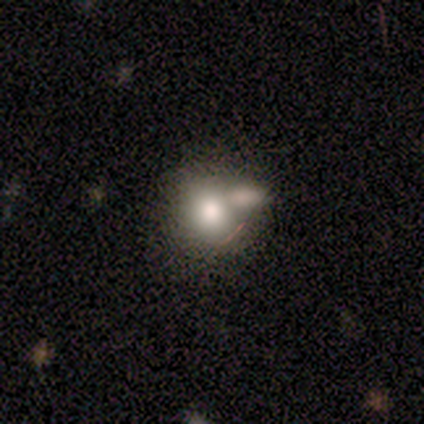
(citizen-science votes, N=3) smooth-or-featured: featured or disk: 67% | smooth: 33% | star or artifact: 0%
  disk-edge-on: no: 100% | yes: 0%
    bar: weak: 50% (tied) | no: 50% (tied) | strong: 0%
    has-spiral-arms: no: 100% | yes: 0%
    bulge-size: large: 50% (tied) | moderate: 50% (tied) | dominant: 0% | small: 0% | none: 0%
  merging: merger: 67% | major disturbance: 33% | none: 0% | minor disturbance: 0%